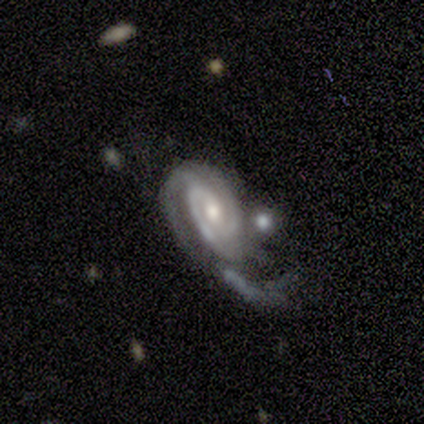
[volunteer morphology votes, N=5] smooth_or_featured: featured or disk (p=0.80) [alt: smooth p=0.20]
disk_edge_on: no (p=1.00)
bar: no (p=0.75) [alt: strong p=0.25]
has_spiral_arms: yes (p=1.00)
spiral_winding: tight (p=0.50) [tied with: medium p=0.50]
spiral_arm_count: 2 (p=0.50) [alt: 3 p=0.25]
bulge_size: small (p=0.75) [alt: moderate p=0.25]
merging: major disturbance (p=0.40) [alt: none p=0.20]